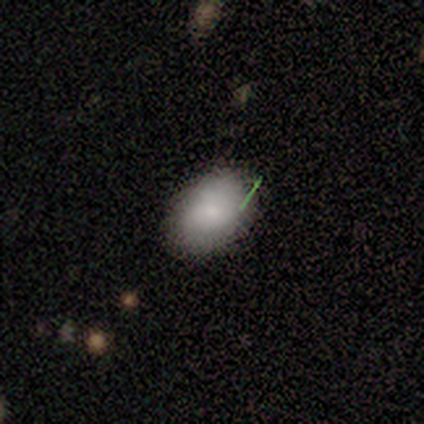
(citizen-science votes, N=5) Smooth or featured? 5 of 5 (100%) said smooth. How rounded? 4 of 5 (80%) said in between. Merging? 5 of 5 (100%) said none.